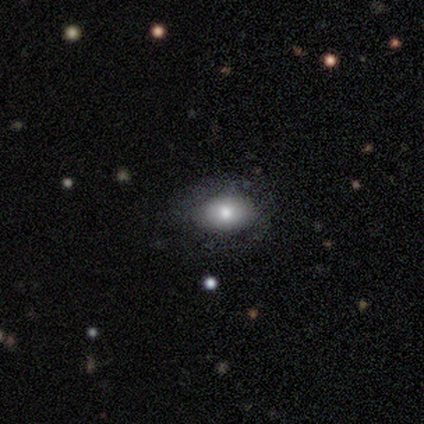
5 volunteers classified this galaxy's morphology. Q: Smooth or featured?
A: smooth (60%); runner-up: featured or disk (20%)
Q: How rounded?
A: in between (67%); runner-up: round (33%)
Q: Merging?
A: none (75%); runner-up: major disturbance (25%)